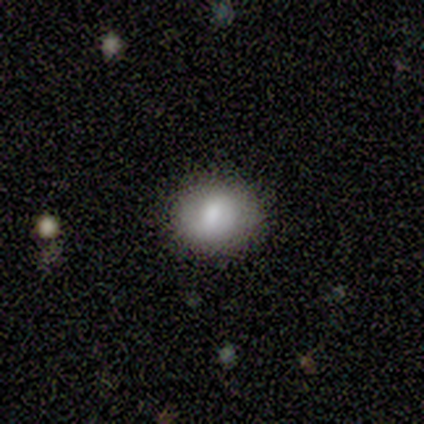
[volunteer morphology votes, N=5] Smooth or featured?
  - smooth: 80% *
  - star or artifact: 20%
  - featured or disk: 0%
How rounded?
  - round: 50% * (tied)
  - in between: 50% * (tied)
  - cigar-shaped: 0%
Merging?
  - none: 100% *
  - minor disturbance: 0%
  - major disturbance: 0%
  - merger: 0%